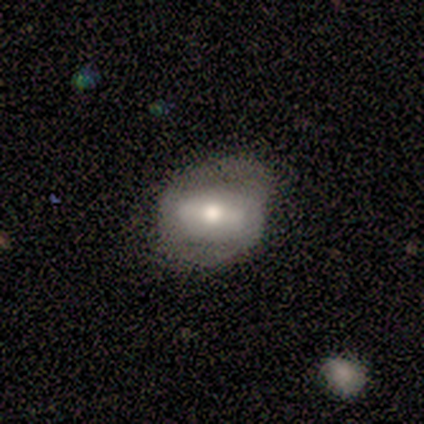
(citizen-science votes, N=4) Smooth or featured?
  - featured or disk: 75% *
  - smooth: 25%
  - star or artifact: 0%
Edge-on disk?
  - no: 67% *
  - yes: 33%
Bar?
  - strong: 50% * (tied)
  - no: 50% * (tied)
  - weak: 0%
Spiral arms?
  - yes: 100% *
  - no: 0%
Spiral winding?
  - tight: 50% * (tied)
  - medium: 50% * (tied)
  - loose: 0%
Spiral arm count?
  - 1: 50% * (tied)
  - 2: 50% * (tied)
  - 3: 0%
  - 4: 0%
  - more than 4: 0%
  - can't tell: 0%
Bulge size?
  - moderate: 50% * (tied)
  - small: 50% * (tied)
  - dominant: 0%
  - large: 0%
  - none: 0%
Merging?
  - none: 50% *
  - minor disturbance: 25%
  - major disturbance: 25%
  - merger: 0%